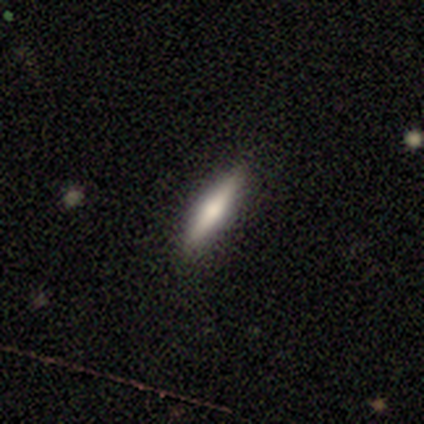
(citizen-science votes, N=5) A smooth galaxy with no disk features (60%) that is cigar-shaped (67%).

Vote fractions:
- Smooth or featured? smooth: 60% / featured or disk: 40% / star or artifact: 0%
- How rounded? cigar-shaped: 67% / round: 33% / in between: 0%
- Merging? none: 100% / minor disturbance: 0% / major disturbance: 0% / merger: 0%